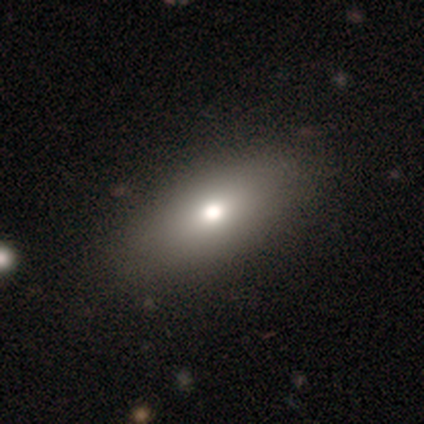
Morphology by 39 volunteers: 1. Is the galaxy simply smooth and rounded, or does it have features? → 74% smooth, 15% featured or disk, 10% star or artifact.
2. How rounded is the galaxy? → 93% in between, 3% round, 3% cigar-shaped.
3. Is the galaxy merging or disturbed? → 74% none, 23% minor disturbance, 3% merger, 0% major disturbance.